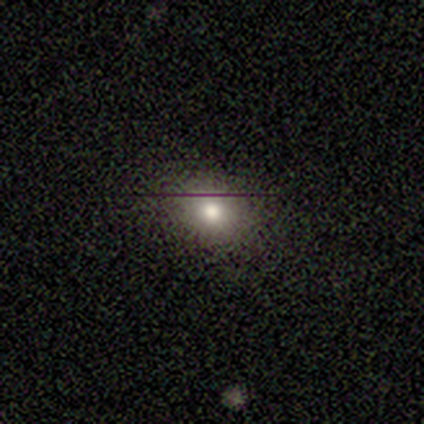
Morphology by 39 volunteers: A smooth galaxy with no disk features (72%) that is round (64%).

Vote fractions:
- Smooth or featured? smooth: 72% / featured or disk: 21% / star or artifact: 8%
- How rounded? round: 64% / in between: 36% / cigar-shaped: 0%
- Merging? none: 94% / minor disturbance: 6% / major disturbance: 0% / merger: 0%